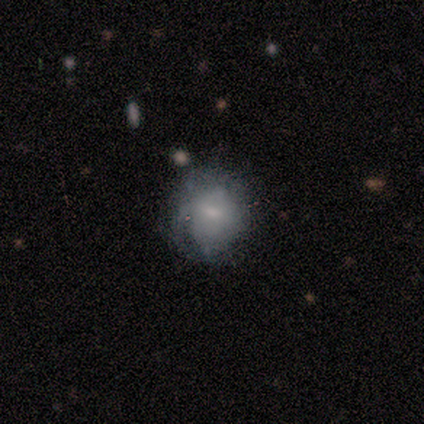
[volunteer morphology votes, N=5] This is likely a featured or disk galaxy (60%). It is clearly not viewed edge-on (100%). Bar: clearly no (100%). Spiral arm pattern: likely no (67%). Central bulge: likely small (67%). Merging: possibly minor disturbance (50%).